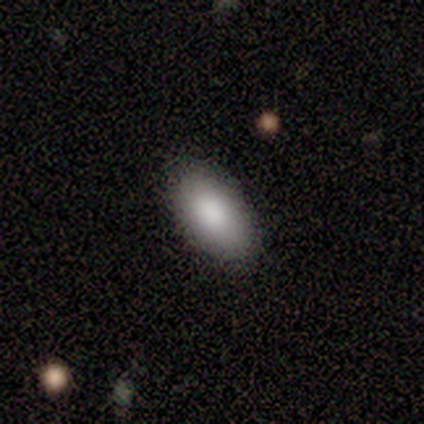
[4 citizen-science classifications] Smooth or featured?
  - smooth: 100% *
  - featured or disk: 0%
  - star or artifact: 0%
How rounded?
  - in between: 100% *
  - round: 0%
  - cigar-shaped: 0%
Merging?
  - none: 100% *
  - minor disturbance: 0%
  - major disturbance: 0%
  - merger: 0%